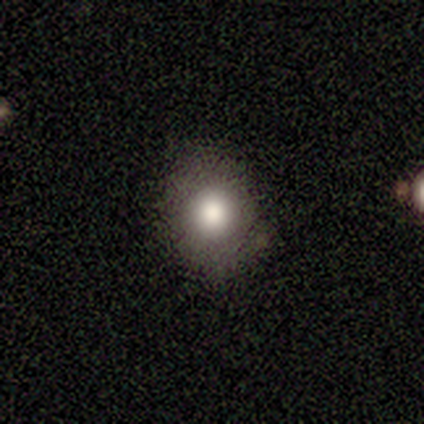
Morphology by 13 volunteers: Smooth or featured?
  - smooth: 85% *
  - featured or disk: 8%
  - star or artifact: 8%
How rounded?
  - round: 64% *
  - in between: 36%
  - cigar-shaped: 0%
Merging?
  - none: 75% *
  - minor disturbance: 17%
  - major disturbance: 8%
  - merger: 0%